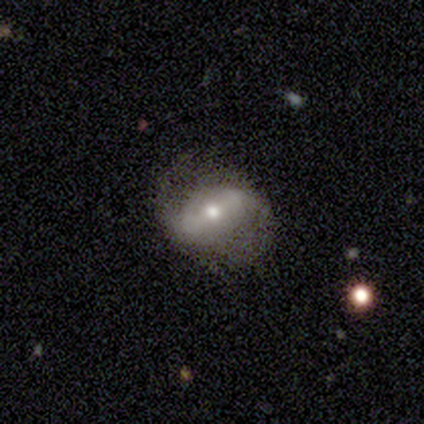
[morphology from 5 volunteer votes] Smooth or featured? featured or disk (60%)
Edge-on disk? no (100%)
Bar? strong (100%)
Spiral arms? yes (100%)
Spiral winding? loose (67%)
Spiral arm count? 2 (100%)
Bulge size? moderate (100%)
Merging? none (100%)